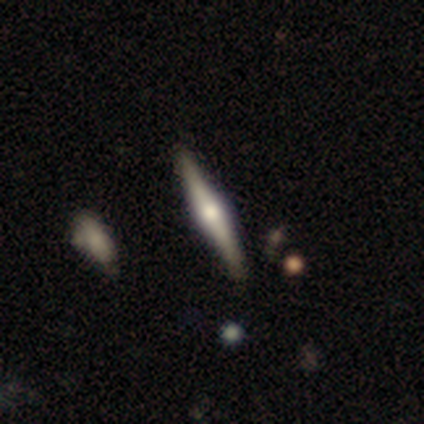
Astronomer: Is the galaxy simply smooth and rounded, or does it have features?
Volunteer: featured or disk — 100%.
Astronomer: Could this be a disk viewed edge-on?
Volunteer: yes — 100%.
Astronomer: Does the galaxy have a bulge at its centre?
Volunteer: rounded — 100%.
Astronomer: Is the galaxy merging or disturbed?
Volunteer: none — 100%.